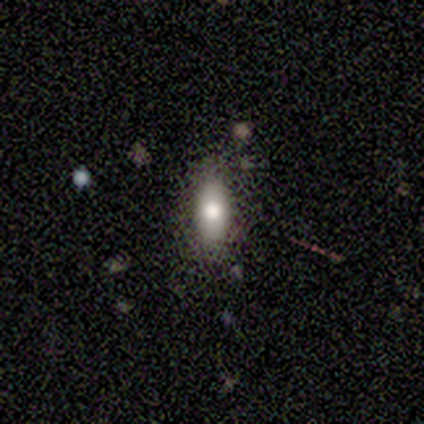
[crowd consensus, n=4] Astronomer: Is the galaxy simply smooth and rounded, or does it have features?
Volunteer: smooth — 75%.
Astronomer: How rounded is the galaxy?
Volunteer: in between — 100%.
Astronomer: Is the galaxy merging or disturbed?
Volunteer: none — 75%.